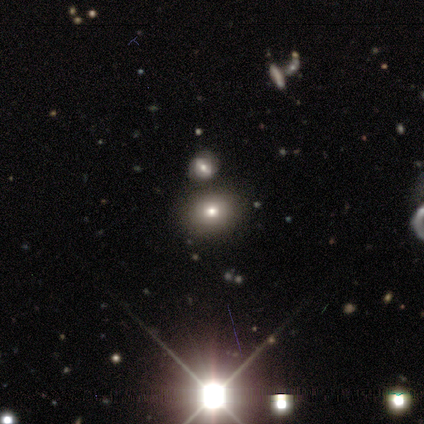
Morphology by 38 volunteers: Volunteers were most divided on "how rounded": round: 57%, in between: 43%, cigar-shaped: 0%. More confident: merging — none (83%); smooth or featured — smooth (55%).